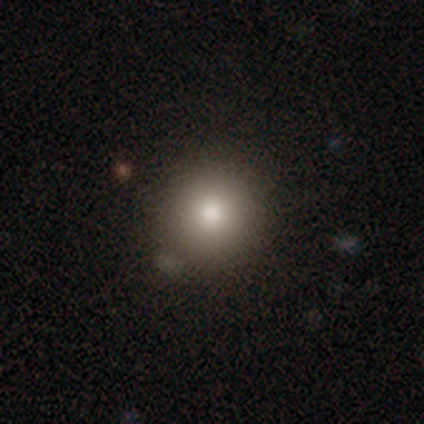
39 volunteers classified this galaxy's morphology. Q: Smooth or featured?
A: smooth (72%); runner-up: star or artifact (18%)
Q: How rounded?
A: round (86%); runner-up: in between (14%)
Q: Merging?
A: none (81%); runner-up: minor disturbance (9%)